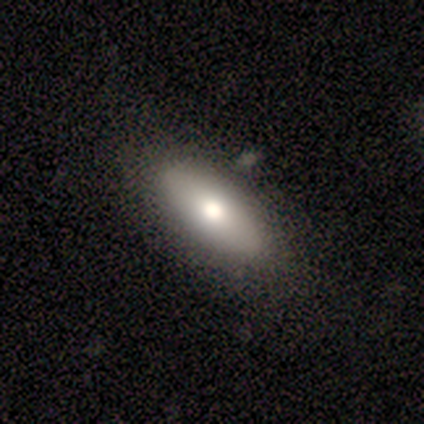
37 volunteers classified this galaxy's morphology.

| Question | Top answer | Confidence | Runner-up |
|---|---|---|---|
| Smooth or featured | smooth | 62% | featured or disk (32%) |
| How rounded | in between | 78% | cigar-shaped (17%) |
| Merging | none | 51% | minor disturbance (6%) |